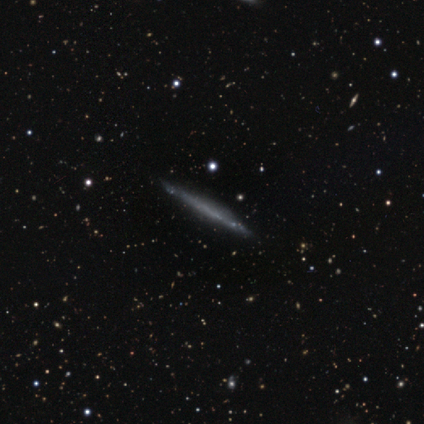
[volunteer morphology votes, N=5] A featured or disk galaxy (60%) viewed edge-on (100%) with no central bulge (67%).

Vote fractions:
- Smooth or featured? featured or disk: 60% / smooth: 40% / star or artifact: 0%
- Edge-on disk? yes: 100% / no: 0%
- Edge-on bulge? none: 67% / rounded: 33% / boxy: 0%
- Merging? none: 80% / minor disturbance: 20% / major disturbance: 0% / merger: 0%